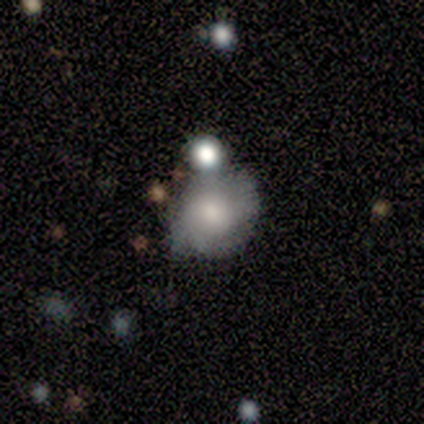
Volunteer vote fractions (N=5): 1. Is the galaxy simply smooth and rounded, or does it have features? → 60% featured or disk, 20% smooth, 20% star or artifact.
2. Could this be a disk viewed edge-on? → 67% yes, 33% no.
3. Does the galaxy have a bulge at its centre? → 100% rounded, 0% boxy, 0% none.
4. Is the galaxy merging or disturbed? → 50% merger, 25% none, 25% minor disturbance, 0% major disturbance.